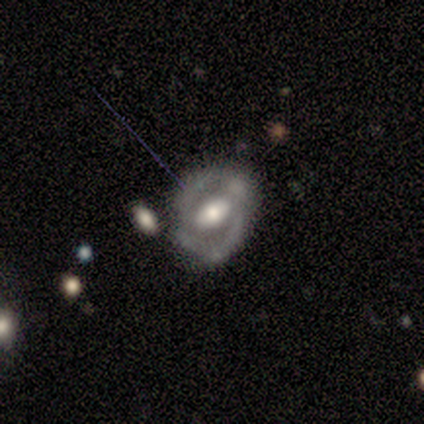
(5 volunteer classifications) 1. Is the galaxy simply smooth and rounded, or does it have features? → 80% featured or disk, 20% smooth, 0% star or artifact.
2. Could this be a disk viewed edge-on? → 100% no, 0% yes.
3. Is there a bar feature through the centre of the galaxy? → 50% weak, 25% strong, 25% no.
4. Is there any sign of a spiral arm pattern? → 50% yes (tied), 50% no (tied).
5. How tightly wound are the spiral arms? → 50% tight (tied), 50% loose (tied), 0% medium.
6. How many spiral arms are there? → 100% 2, 0% 1, 0% 3, 0% 4, 0% more than 4, 0% can't tell.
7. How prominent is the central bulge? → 50% large (tied), 50% moderate (tied), 0% dominant, 0% small, 0% none.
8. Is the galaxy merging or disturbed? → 80% none, 20% minor disturbance, 0% major disturbance, 0% merger.